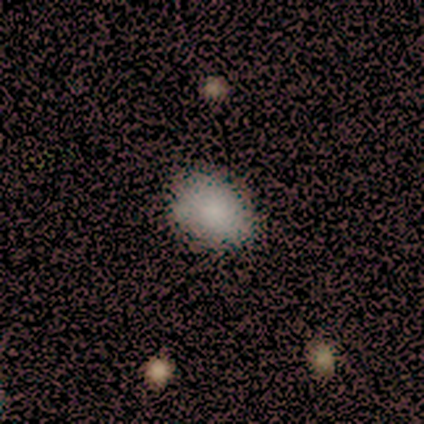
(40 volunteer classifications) Q: Smooth or featured?
A: smooth (90%); runner-up: featured or disk (5%)
Q: How rounded?
A: in between (83%); runner-up: round (17%)
Q: Merging?
A: none (47%); runner-up: minor disturbance (13%)